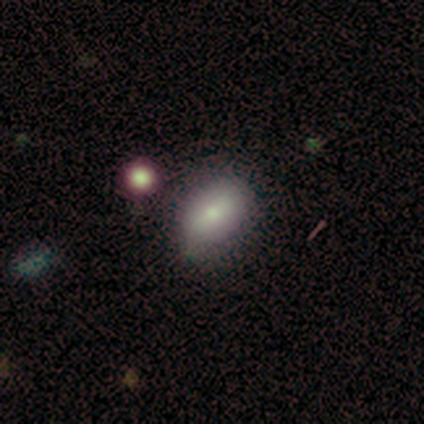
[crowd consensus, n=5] This appears to be a smooth galaxy with no disk features (80%) that is in between round and cigar-shaped (100%). Merging: none (100%).